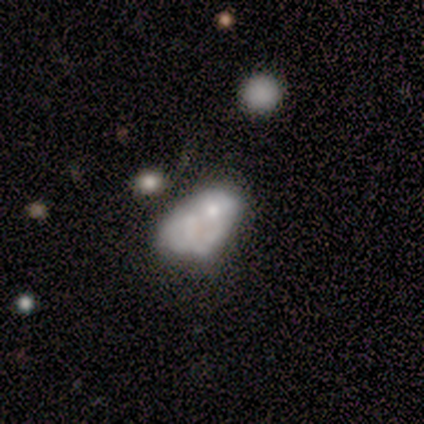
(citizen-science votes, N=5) Overall: featured or disk (60%; smooth 40%). Edge-on disk: no (100%). Bar: no (100%). Spiral arms: no (100%). Bulge size: large (33%, tied with moderate and none). Merging: merger (40%; none 20%).